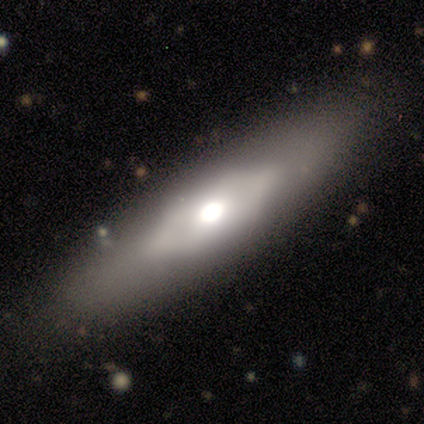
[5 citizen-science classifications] Morphology: type=featured or disk (60%); edge-on=yes (67%); edge-on bulge=boxy (50%, tied with rounded); merging=none (80%).